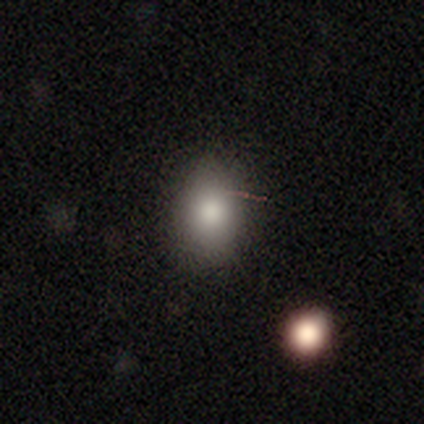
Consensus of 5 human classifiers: smooth 100%, featured or disk 0%, star or artifact 0%. Down the decision tree: how rounded — in between (60%); merging — none (80%).